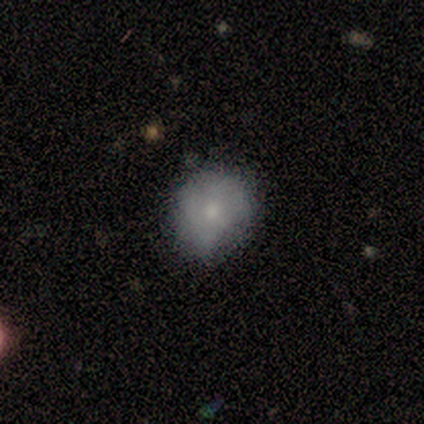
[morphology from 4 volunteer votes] This is likely a smooth galaxy (75%). How rounded: likely round (67%). Merging: likely none (75%).